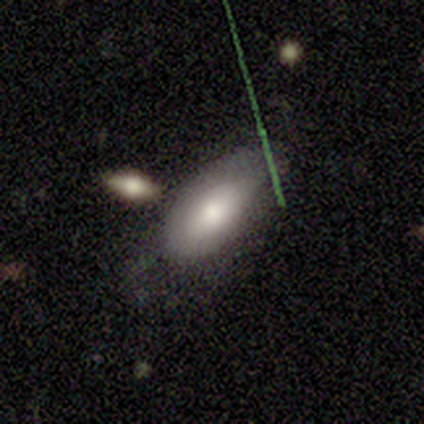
Smooth or featured? smooth (67%)
How rounded? in between (100%)
Merging? none (53%)